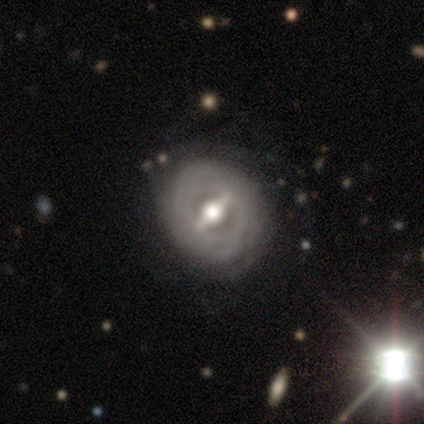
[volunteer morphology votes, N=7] Smooth or featured? featured or disk (57%)
Edge-on disk? no (75%)
Bar? strong (100%)
Spiral arms? no (67%)
Bulge size? moderate (100%)
Merging? none (67%)